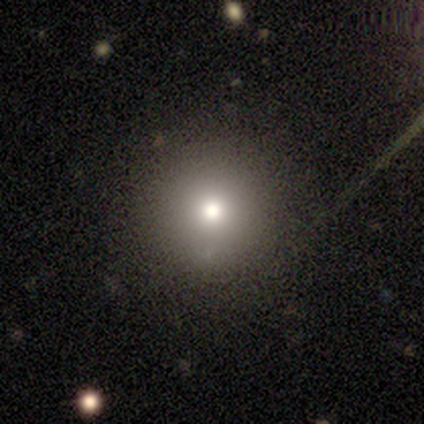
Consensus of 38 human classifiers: Smooth or featured? smooth (66%)
How rounded? round (100%)
Merging? none (86%)